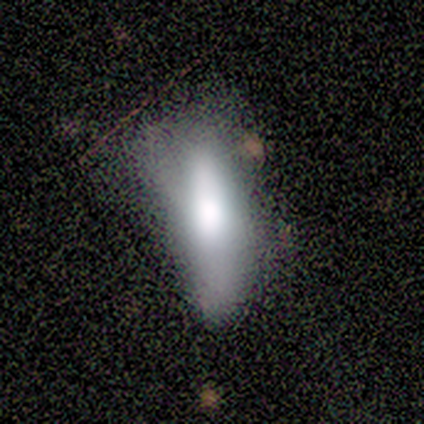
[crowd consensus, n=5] smooth_or_featured: smooth (p=0.40) [tied with: featured or disk p=0.40]
how_rounded: in between (p=0.50) [tied with: cigar-shaped p=0.50]
merging: minor disturbance (p=0.50) [alt: none p=0.25]